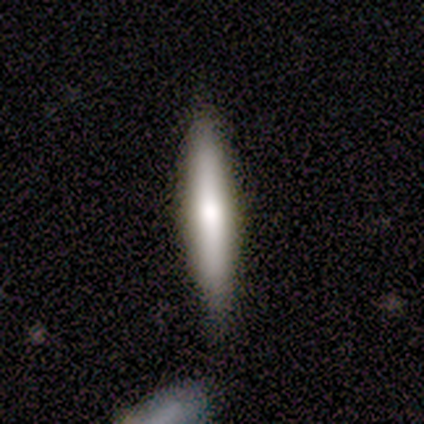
Q: Smooth or featured?
A: smooth (57%); runner-up: featured or disk (43%)
Q: How rounded?
A: cigar-shaped (75%); runner-up: in between (25%)
Q: Merging?
A: none (86%); runner-up: minor disturbance (14%)